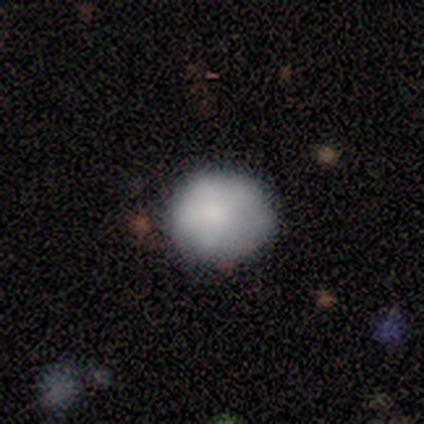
Smooth or featured? 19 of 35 (54%) said smooth. How rounded? 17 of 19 (89%) said round. Merging? 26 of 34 (76%) said none.